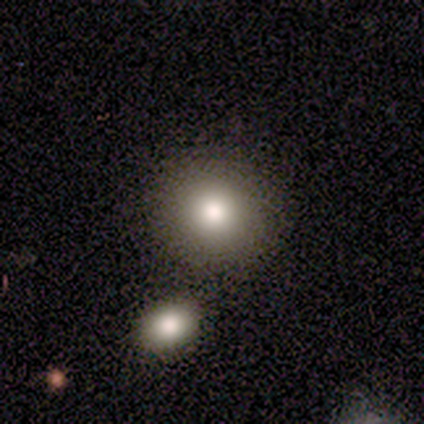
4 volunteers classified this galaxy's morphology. type=smooth (75%); roundness=round (100%); merging=none (100%).